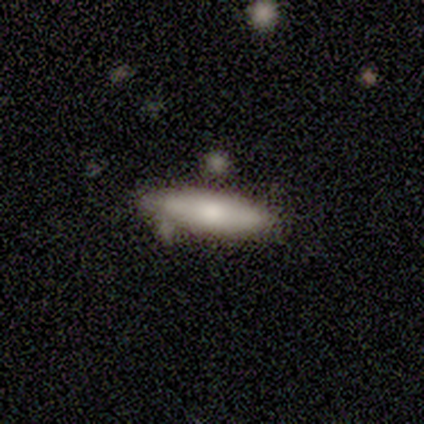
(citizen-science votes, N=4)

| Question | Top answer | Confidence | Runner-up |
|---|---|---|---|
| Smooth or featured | smooth | 50% | featured or disk (25%) |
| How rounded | cigar-shaped | 100% | — |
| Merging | none | 67% | merger (33%) |